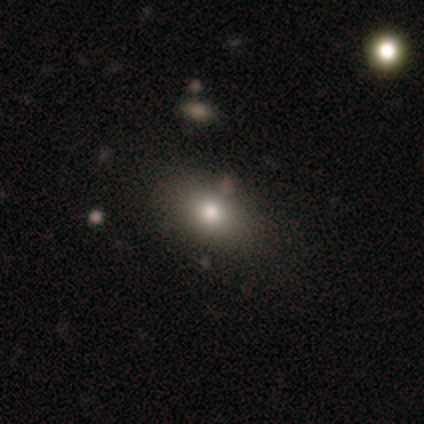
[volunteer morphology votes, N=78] A smooth galaxy with no disk features (77%) that is in between round and cigar-shaped (83%).

Vote fractions:
- Smooth or featured? smooth: 77% / featured or disk: 12% / star or artifact: 12%
- How rounded? in between: 83% / round: 15% / cigar-shaped: 2%
- Merging? none: 42% / minor disturbance: 7% / merger: 6% / major disturbance: 1%